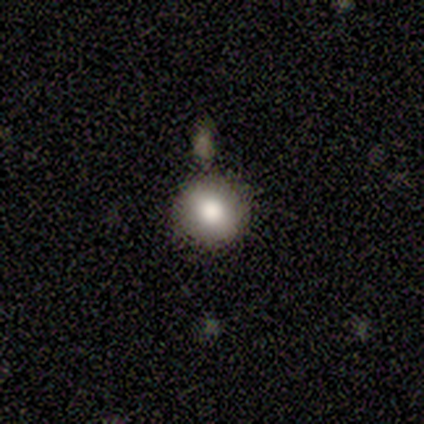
This appears to be a smooth galaxy with no disk features (83%) that is round (100%). Merging: none (83%).